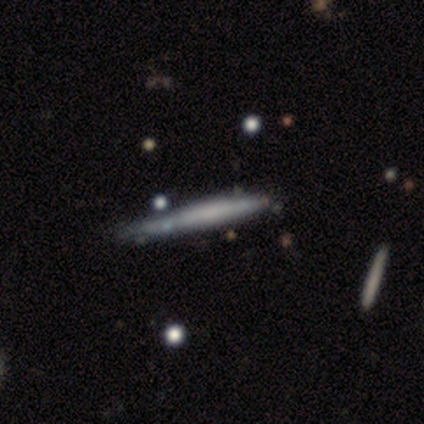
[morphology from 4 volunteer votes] Smooth or featured: smooth — 75% (featured or disk — 25%)
How rounded: cigar-shaped — 100%
Merging: minor disturbance — 50% (none — 25%)